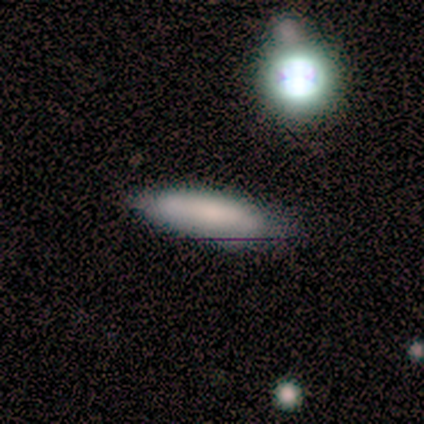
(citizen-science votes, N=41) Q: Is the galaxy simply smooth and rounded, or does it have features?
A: smooth — 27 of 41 (66%).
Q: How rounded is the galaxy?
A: cigar-shaped — 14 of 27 (52%).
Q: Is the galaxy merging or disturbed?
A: none — 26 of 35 (74%).